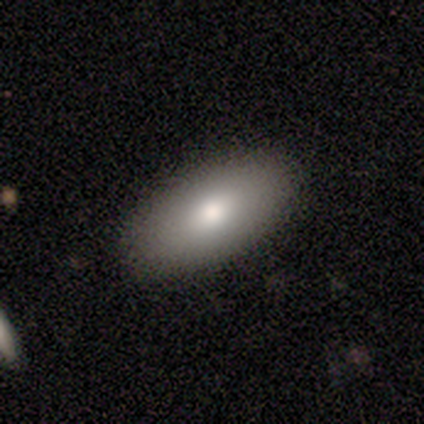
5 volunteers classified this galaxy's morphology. Overall: smooth (100%). How rounded: in between (100%). Merging: none (100%).